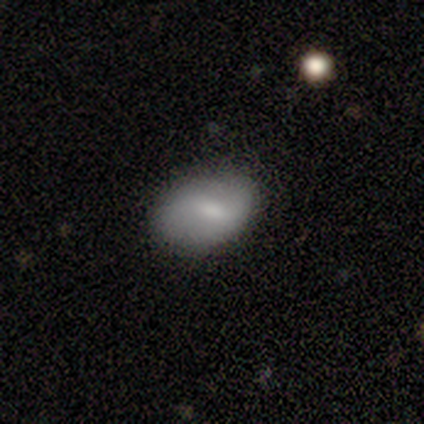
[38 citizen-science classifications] smooth_or_featured: smooth (p=0.66) [alt: featured or disk p=0.34]
how_rounded: in between (p=0.96) [alt: round p=0.04]
merging: none (p=0.68) [alt: minor disturbance p=0.24]